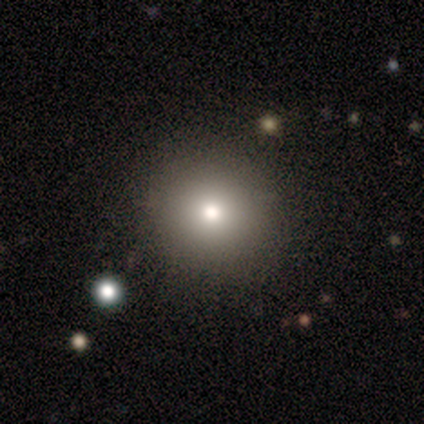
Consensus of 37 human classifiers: smooth-or-featured: smooth: 57% | star or artifact: 30% | featured or disk: 14%
  how-rounded: round: 95% | in between: 5% | cigar-shaped: 0%
  merging: none: 92% | minor disturbance: 8% | major disturbance: 0% | merger: 0%